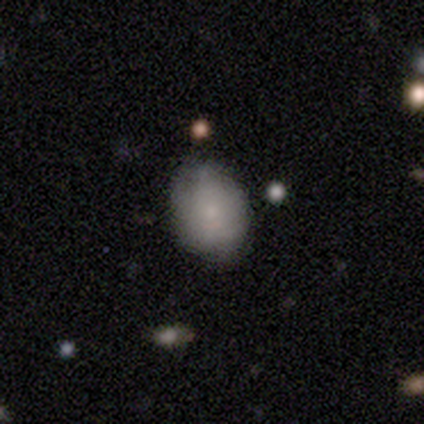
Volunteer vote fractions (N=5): smooth_or_featured: smooth (p=0.80) [alt: featured or disk p=0.20]
how_rounded: round (p=0.50) [tied with: in between p=0.50]
merging: none (p=0.80) [alt: minor disturbance p=0.20]